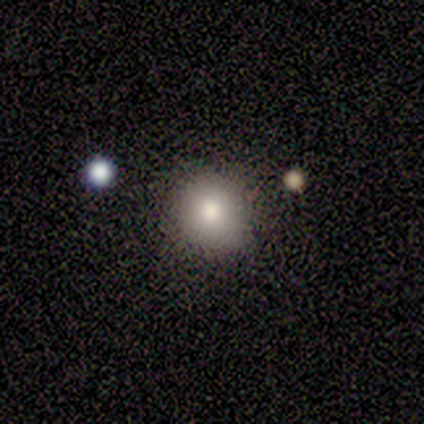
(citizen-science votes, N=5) smooth_or_featured: smooth (p=0.80) [alt: star or artifact p=0.20]
how_rounded: round (p=0.75) [alt: in between p=0.25]
merging: none (p=0.50) [tied with: minor disturbance p=0.50]